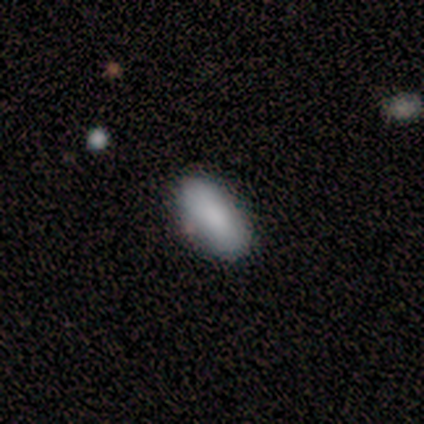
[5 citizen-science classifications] A smooth galaxy with no disk features (100%) that is in between round and cigar-shaped (80%). Merging: none (80%).